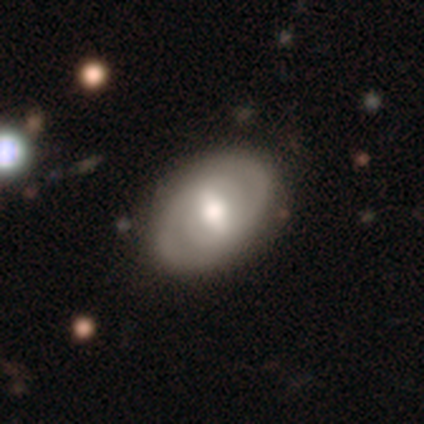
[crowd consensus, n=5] Overall: featured or disk (60%; smooth 40%). Edge-on disk: no (100%). Bar: no (67%; weak 33%). Spiral arms: yes (100%). Spiral arm count: 2 (100%). Spiral winding: tight (67%; medium 33%). Bulge size: moderate (100%). Merging: none (100%).